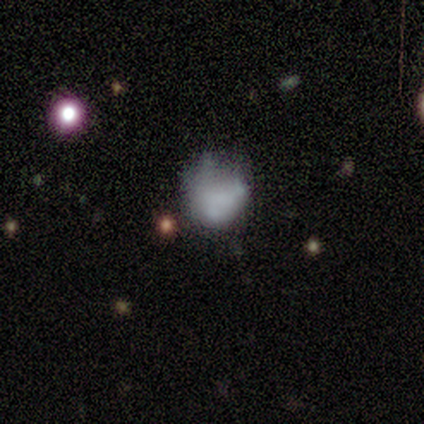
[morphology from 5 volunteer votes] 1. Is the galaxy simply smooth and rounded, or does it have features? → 80% smooth, 20% star or artifact, 0% featured or disk.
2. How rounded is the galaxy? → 50% round (tied), 50% in between (tied), 0% cigar-shaped.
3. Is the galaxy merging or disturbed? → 50% major disturbance, 25% none, 25% minor disturbance, 0% merger.